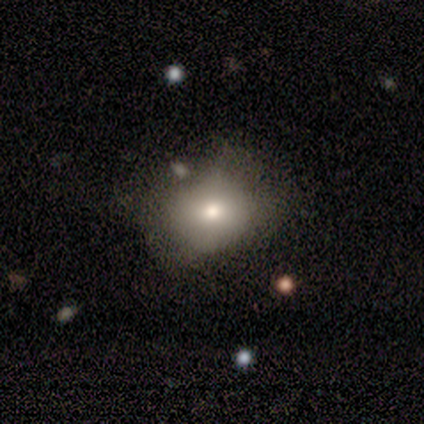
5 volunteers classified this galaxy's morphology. A smooth galaxy with no disk features (80%) that is round (100%). Merging: none (80%).